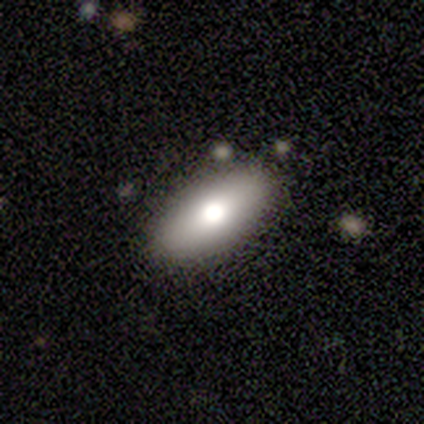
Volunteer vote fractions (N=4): Smooth or featured? smooth (75%)
How rounded? in between (100%)
Merging? none (100%)